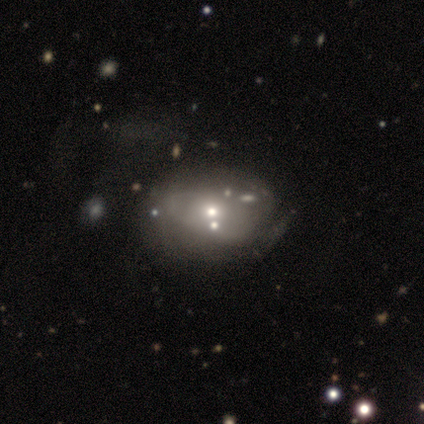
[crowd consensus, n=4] Smooth or featured?
  - featured or disk: 75% *
  - star or artifact: 25%
  - smooth: 0%
Edge-on disk?
  - no: 100% *
  - yes: 0%
Bar?
  - no: 67% *
  - weak: 33%
  - strong: 0%
Spiral arms?
  - yes: 100% *
  - no: 0%
Spiral winding?
  - medium: 67% *
  - loose: 33%
  - tight: 0%
Spiral arm count?
  - can't tell: 67% *
  - 1: 33%
  - 2: 0%
  - 3: 0%
  - 4: 0%
  - more than 4: 0%
Bulge size?
  - small: 100% *
  - dominant: 0%
  - large: 0%
  - moderate: 0%
  - none: 0%
Merging?
  - merger: 67% *
  - none: 33%
  - minor disturbance: 0%
  - major disturbance: 0%